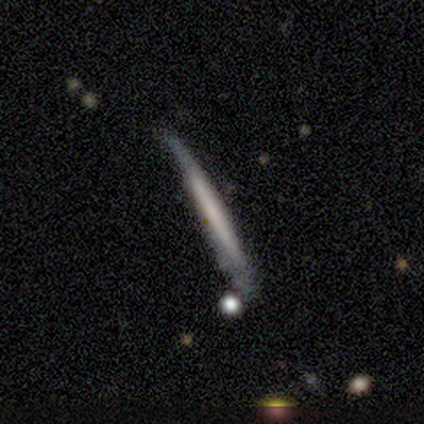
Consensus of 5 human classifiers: This appears to be a smooth galaxy with no disk features (40%, tied with featured or disk) that is cigar-shaped (100%). Merging: none (75%).